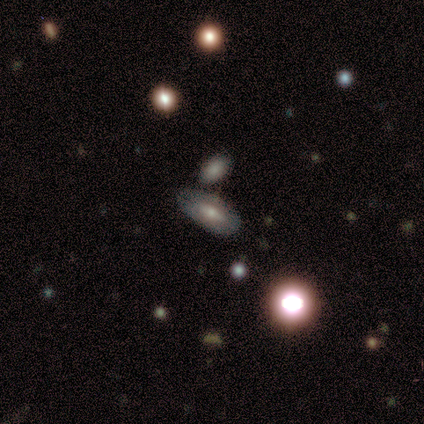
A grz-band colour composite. It shows a smooth galaxy with no disk features (48%) that is in between round and cigar-shaped (79%). Merging: none (55%).